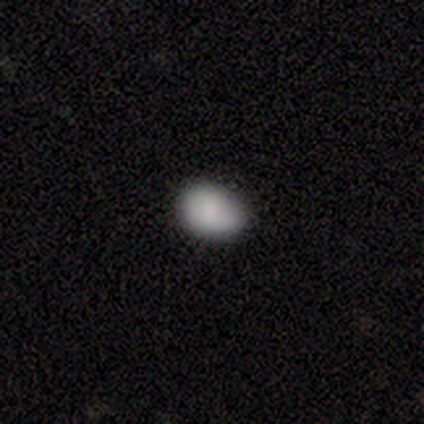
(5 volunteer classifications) A smooth galaxy with no disk features (100%) that is in between round and cigar-shaped (60%). Merging: none (80%).